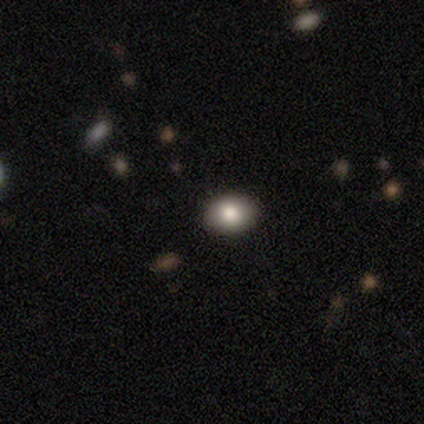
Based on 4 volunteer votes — This appears to be a smooth galaxy with no disk features (75%) that is in between round and cigar-shaped (100%). Merging: none (100%).